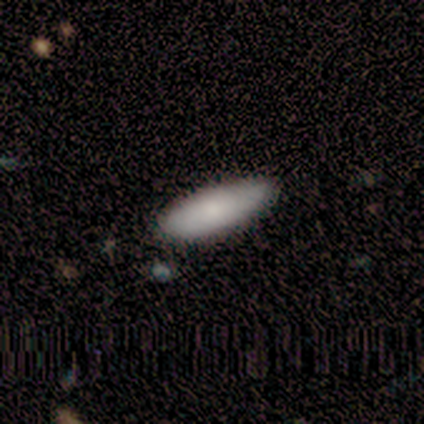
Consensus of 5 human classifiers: Smooth or featured? smooth (100%)
How rounded? in between (80%)
Merging? minor disturbance (60%)